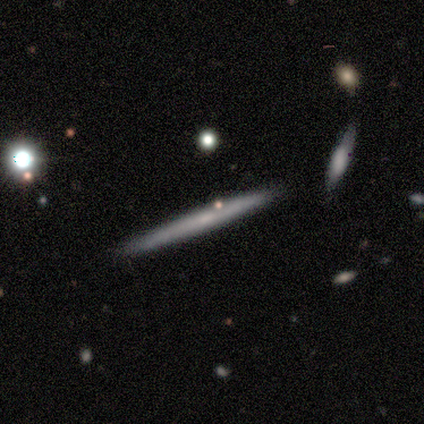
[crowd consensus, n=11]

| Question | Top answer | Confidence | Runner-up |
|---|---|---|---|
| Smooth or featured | smooth | 64% | featured or disk (36%) |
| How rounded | cigar-shaped | 86% | in between (14%) |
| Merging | none | 100% | — |